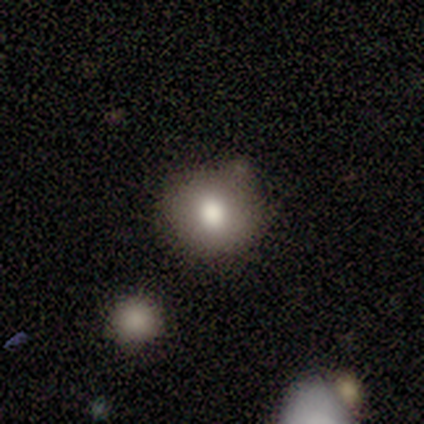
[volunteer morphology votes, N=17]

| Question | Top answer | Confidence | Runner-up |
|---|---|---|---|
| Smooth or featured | smooth | 88% | featured or disk (6%) |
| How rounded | round | 93% | in between (7%) |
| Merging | none | 75% | minor disturbance (12%) |